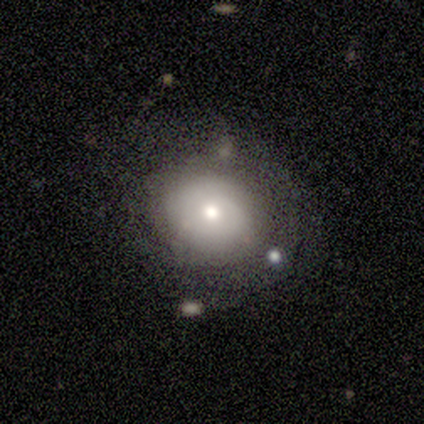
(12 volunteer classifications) Volunteers were most divided on "merging": none: 55%, minor disturbance: 36%, merger: 9%, major disturbance: 0%. More confident: edge-on disk — no (100%); bar — no (100%); spiral arms — no (86%); smooth or featured — featured or disk (58%); bulge size — moderate (57%).